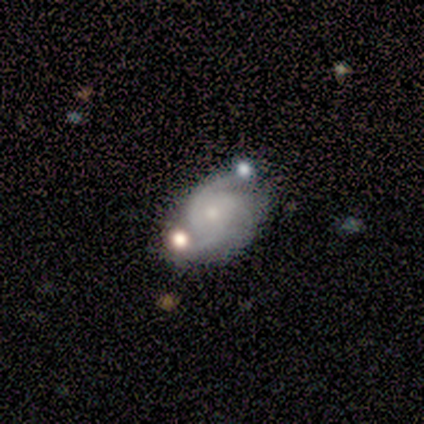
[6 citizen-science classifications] Morphology: type=featured or disk (100%); edge-on=no (100%); bar=no (83%); spiral arms=yes (100%); winding=tight (50%); arm count=2 (83%); bulge=small (83%); merging=none (50%).